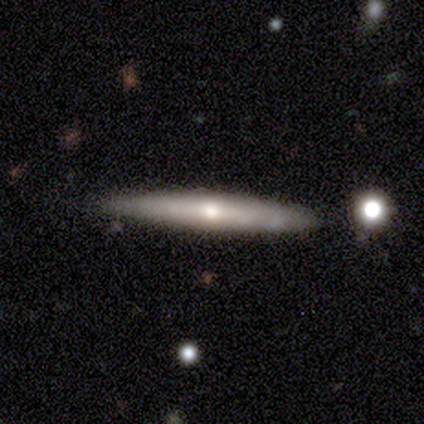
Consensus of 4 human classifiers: Smooth or featured? featured or disk (75%)
Edge-on disk? yes (67%)
Edge-on bulge? rounded (100%)
Merging? none (100%)